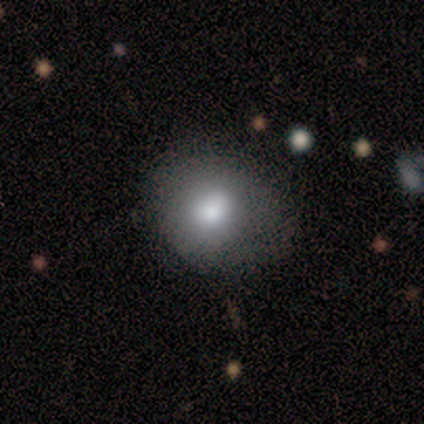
smooth_or_featured: smooth (p=1.00)
how_rounded: round (p=0.60) [alt: in between p=0.40]
merging: none (p=0.60) [alt: minor disturbance p=0.40]